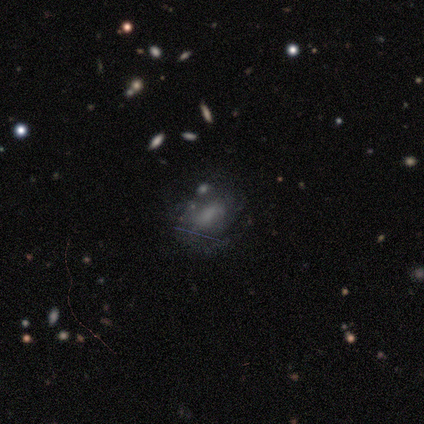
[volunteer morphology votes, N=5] Smooth or featured? featured or disk (80%)
Edge-on disk? no (100%)
Bar? no (50%)
Spiral arms? yes (75%)
Spiral winding? medium (67%)
Spiral arm count? 1 (33%, tied with 2 and can't tell)
Bulge size? small (50%, tied with none)
Merging? minor disturbance (60%)